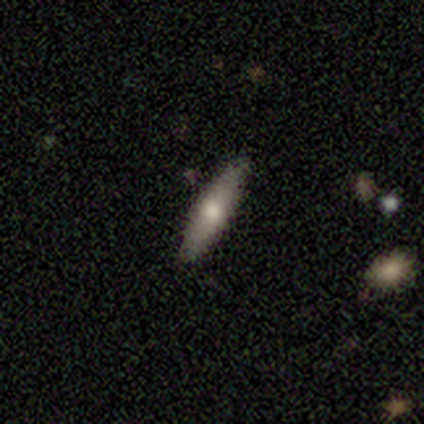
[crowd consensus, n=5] Smooth or featured? 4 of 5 (80%) said featured or disk. Edge-on disk? 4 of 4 (100%) said yes. Edge-on bulge? 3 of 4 (75%) said rounded. Merging? 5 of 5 (100%) said none.